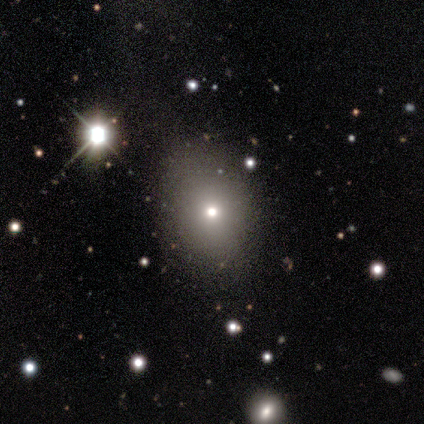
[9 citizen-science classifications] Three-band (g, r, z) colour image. It shows a smooth galaxy with no disk features (56%) that is in between round and cigar-shaped (60%). Merging: none (100%).